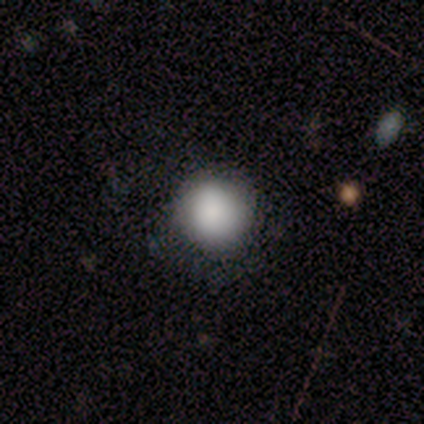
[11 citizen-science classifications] smooth_or_featured: smooth (p=0.91) [alt: star or artifact p=0.09]
how_rounded: round (p=1.00)
merging: none (p=0.80) [alt: minor disturbance p=0.20]